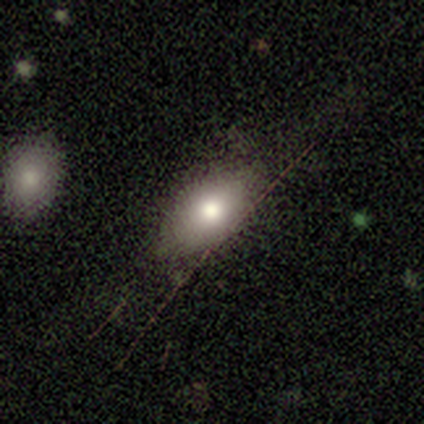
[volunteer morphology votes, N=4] A star or artifact, not a galaxy (50%).